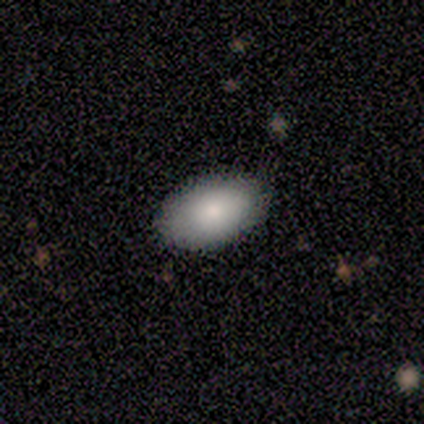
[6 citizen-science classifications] This appears to be a smooth galaxy with no disk features (83%) that is in between round and cigar-shaped (100%). Merging: none (80%).